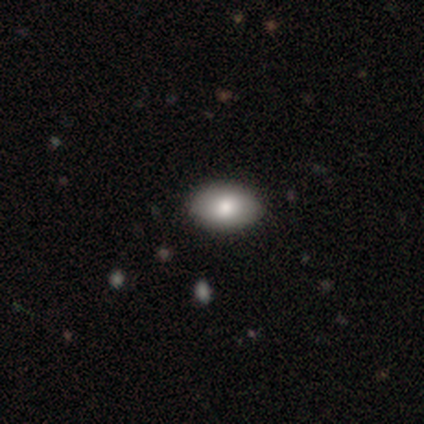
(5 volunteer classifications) Smooth or featured: smooth — 100%
How rounded: in between — 100%
Merging: none — 80% (minor disturbance — 20%)